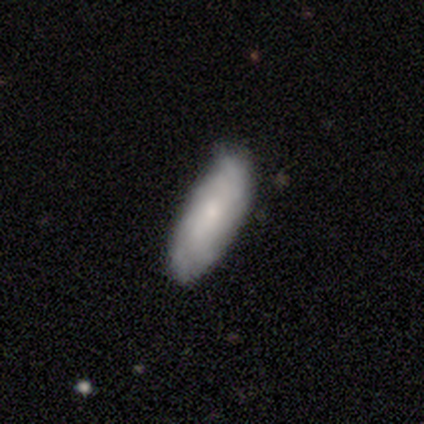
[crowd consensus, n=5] Q: Smooth or featured?
A: featured or disk (60%); runner-up: smooth (20%)
Q: Edge-on disk?
A: no (100%)
Q: Bar?
A: no (100%)
Q: Spiral arms?
A: yes (67%); runner-up: no (33%)
Q: Spiral winding?
A: tight (50%); tied with: loose (50%)
Q: Spiral arm count?
A: 4 (50%); tied with: can't tell (50%)
Q: Bulge size?
A: small (100%)
Q: Merging?
A: minor disturbance (75%); runner-up: none (25%)